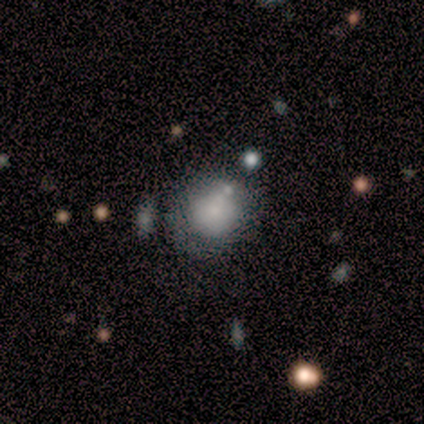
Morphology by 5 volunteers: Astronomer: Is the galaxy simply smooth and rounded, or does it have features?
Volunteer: smooth — 80%.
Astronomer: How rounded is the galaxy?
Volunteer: round — 75%.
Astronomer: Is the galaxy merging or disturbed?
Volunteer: none — 50%.